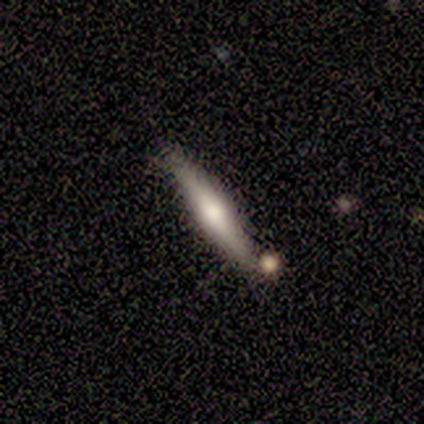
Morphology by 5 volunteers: This appears to be a smooth galaxy with no disk features (60%) that is cigar-shaped (100%). Merging: none (60%).